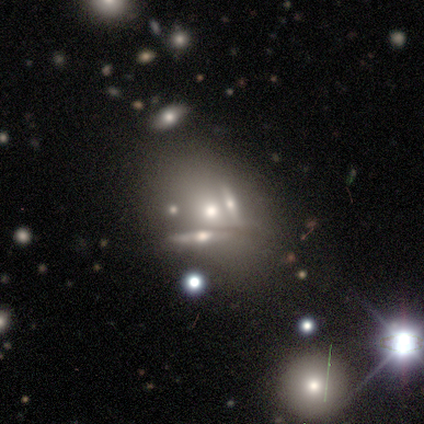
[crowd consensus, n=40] Smooth or featured? featured or disk (48%)
Edge-on disk? no (58%)
Bar? no (91%)
Spiral arms? no (100%)
Bulge size? moderate (36%)
Merging? merger (48%)